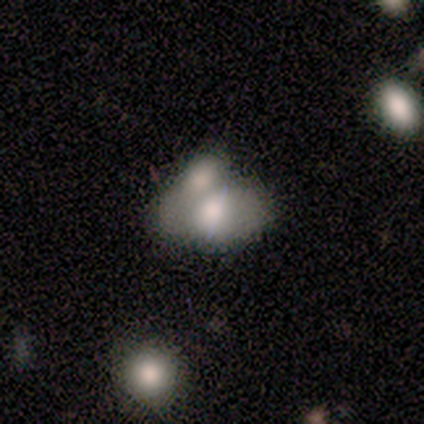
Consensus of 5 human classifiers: Overall: featured or disk (60%; smooth 40%). Edge-on disk: no (100%). Bar: no (100%). Spiral arms: no (100%). Bulge size: large (33%, tied with moderate and none). Merging: merger (80%).